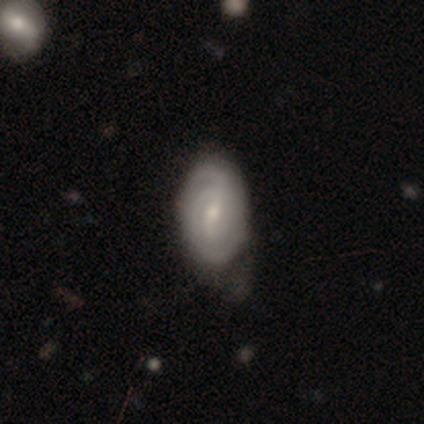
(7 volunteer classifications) smooth_or_featured: featured or disk (p=0.86) [alt: smooth p=0.14]
disk_edge_on: no (p=1.00)
bar: weak (p=0.50) [tied with: no p=0.50]
has_spiral_arms: yes (p=1.00)
spiral_winding: tight (p=0.50) [alt: medium p=0.33]
spiral_arm_count: 2 (p=0.67) [alt: can't tell p=0.33]
bulge_size: small (p=0.67) [alt: moderate p=0.33]
merging: minor disturbance (p=0.57) [alt: none p=0.43]